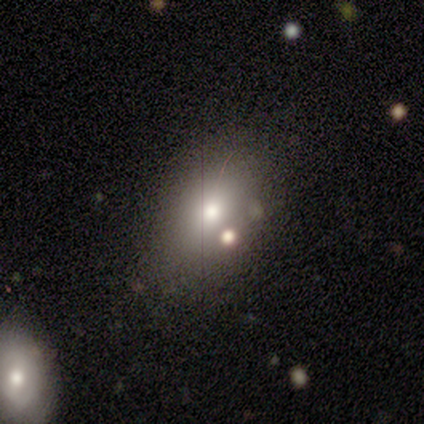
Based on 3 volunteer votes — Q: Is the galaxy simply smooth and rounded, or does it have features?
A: featured or disk — 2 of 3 (67%).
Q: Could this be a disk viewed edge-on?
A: yes — 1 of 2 (50%, tied with no).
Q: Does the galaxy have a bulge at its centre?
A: rounded — 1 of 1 (100%).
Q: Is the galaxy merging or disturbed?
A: none — 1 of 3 (33%, tied with minor disturbance and merger).